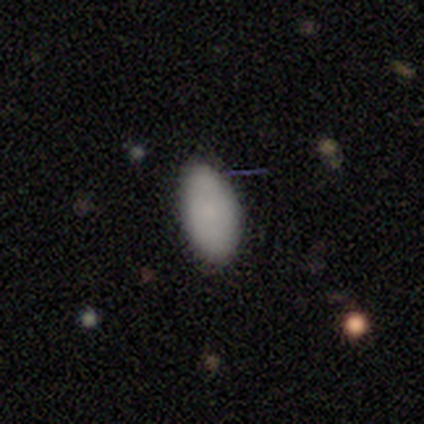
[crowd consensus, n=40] This is clearly a smooth galaxy (88%). How rounded: clearly in between (91%). Merging: clearly none (82%).